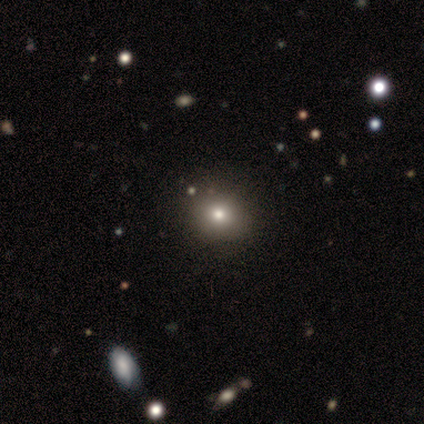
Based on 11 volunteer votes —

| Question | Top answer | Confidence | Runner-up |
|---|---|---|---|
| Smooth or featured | smooth | 64% | featured or disk (18%) |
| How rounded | round | 86% | in between (14%) |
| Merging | none | 89% | major disturbance (11%) |